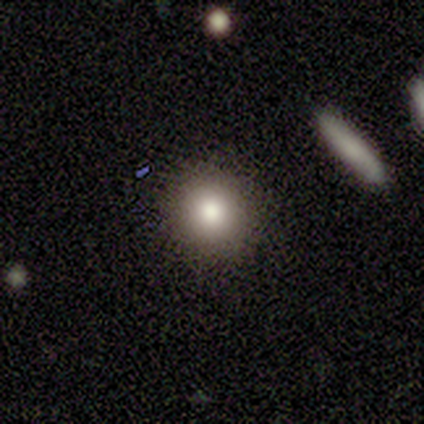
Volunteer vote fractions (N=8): Smooth or featured?
  - smooth: 75% *
  - star or artifact: 25%
  - featured or disk: 0%
How rounded?
  - round: 100% *
  - in between: 0%
  - cigar-shaped: 0%
Merging?
  - none: 100% *
  - minor disturbance: 0%
  - major disturbance: 0%
  - merger: 0%